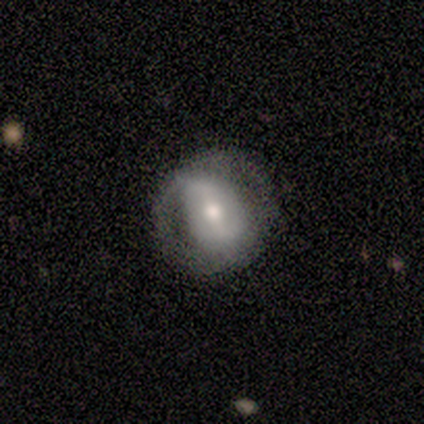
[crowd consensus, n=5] This is likely a smooth galaxy (60%). How rounded: likely in between (67%). Merging: clearly none (80%).